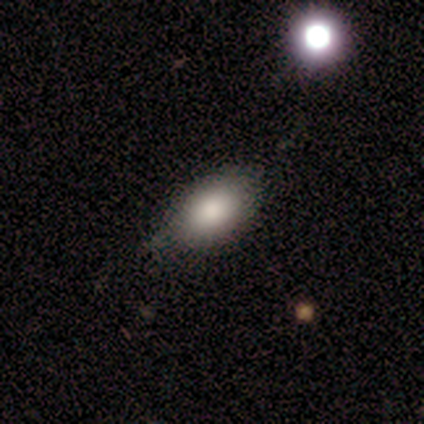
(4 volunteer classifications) Morphology: type=smooth (50%); roundness=in between (100%); merging=minor disturbance (67%).